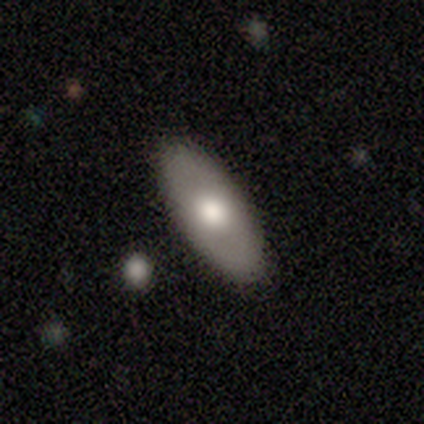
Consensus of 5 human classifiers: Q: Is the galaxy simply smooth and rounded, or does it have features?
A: smooth — 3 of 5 (60%).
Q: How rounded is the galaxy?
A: in between — 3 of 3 (100%).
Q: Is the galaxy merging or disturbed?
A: none — 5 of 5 (100%).